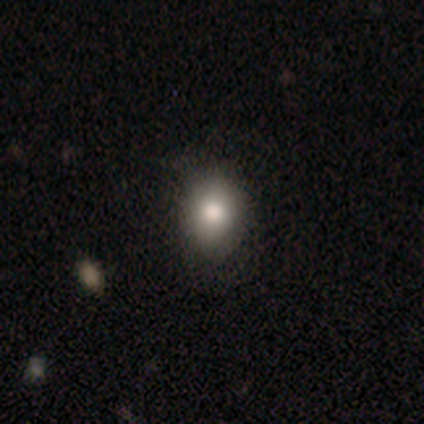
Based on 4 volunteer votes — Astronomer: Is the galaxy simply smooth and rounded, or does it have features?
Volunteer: smooth — 75%.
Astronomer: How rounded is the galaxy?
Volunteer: round — 100%.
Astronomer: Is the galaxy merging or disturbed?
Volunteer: none — 67%.